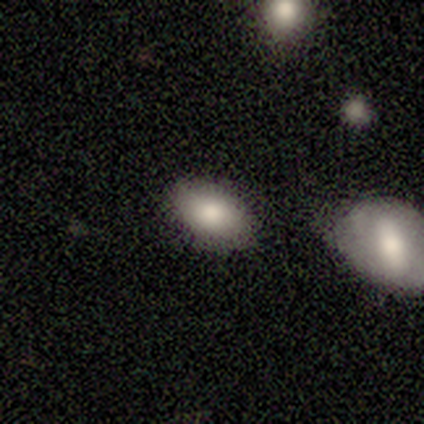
This appears to be a smooth galaxy with no disk features (80%) that is in between round and cigar-shaped (100%). Merging: none (50%, tied with minor disturbance).